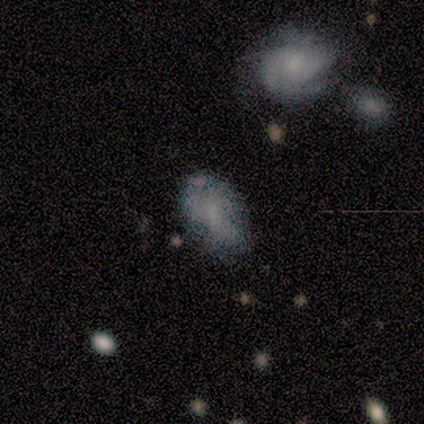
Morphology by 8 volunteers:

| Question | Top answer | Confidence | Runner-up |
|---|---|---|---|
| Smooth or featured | smooth | 50% | tied: featured or disk (50%) |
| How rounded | in between | 100% | — |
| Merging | none | 62% | minor disturbance (25%) |